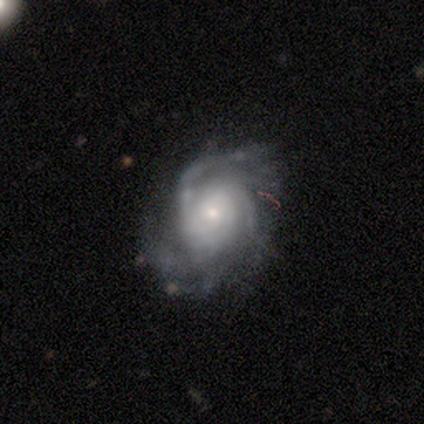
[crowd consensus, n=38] A featured or disk galaxy (92%) with no bar (65%), tight (61%) spiral arms (97%) and a small central bulge (71%).

Vote fractions:
- Smooth or featured? featured or disk: 92% / smooth: 5% / star or artifact: 3%
- Edge-on disk? no: 97% / yes: 3%
- Bar? no: 65% / weak: 26% / strong: 9%
- Spiral arms? yes: 97% / no: 3%
- Spiral winding? tight: 61% / medium: 27% / loose: 12%
- Spiral arm count? can't tell: 36% / 3: 30% / more than 4: 21% / 2: 9% / 4: 3% / 1: 0%
- Bulge size? small: 71% / moderate: 18% / dominant: 9% / large: 3% / none: 0%
- Merging? none: 65% / minor disturbance: 19% / major disturbance: 16% / merger: 0%